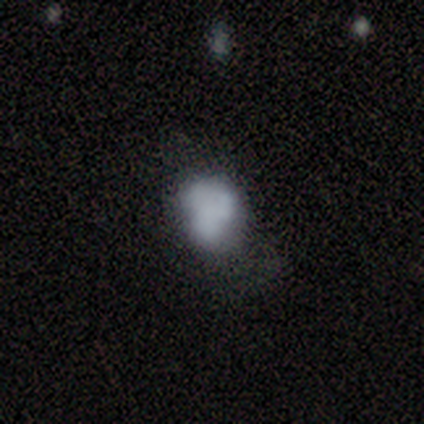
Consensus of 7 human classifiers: smooth_or_featured: smooth (p=0.86) [alt: featured or disk p=0.14]
how_rounded: in between (p=0.67) [alt: round p=0.33]
merging: minor disturbance (p=0.43) [tied with: major disturbance p=0.43]